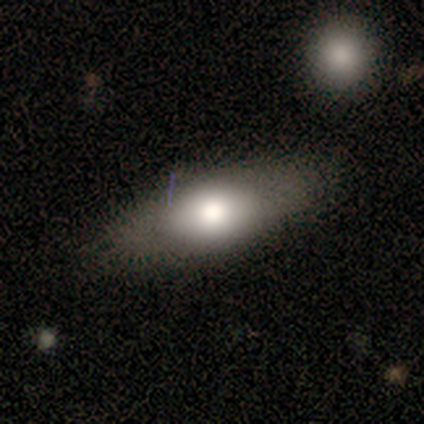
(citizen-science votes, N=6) A smooth galaxy with no disk features (83%) that is in between round and cigar-shaped (80%). Merging: none (67%).